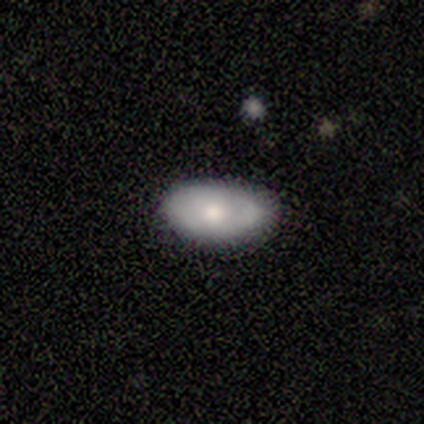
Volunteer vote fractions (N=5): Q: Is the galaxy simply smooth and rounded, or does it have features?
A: smooth — 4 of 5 (80%).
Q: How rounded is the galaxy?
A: in between — 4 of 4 (100%).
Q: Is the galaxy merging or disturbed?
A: none — 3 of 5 (60%).